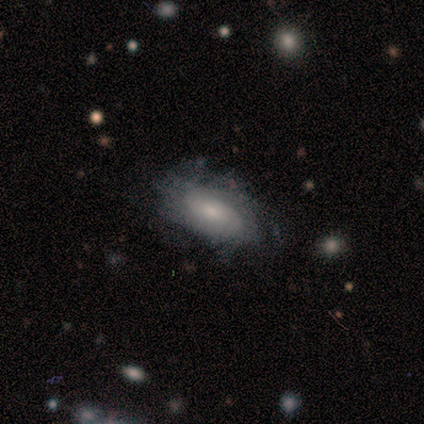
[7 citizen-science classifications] Overall: featured or disk (71%). Edge-on disk: no (100%). Bar: no (100%). Spiral arms: yes (100%). Spiral arm count: can't tell (100%). Spiral winding: tight (60%; medium 20%). Bulge size: moderate (60%; small 40%). Merging: none (86%).